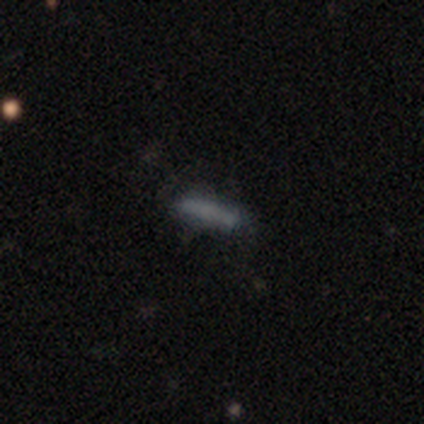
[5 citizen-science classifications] Smooth or featured? smooth (60%)
How rounded? cigar-shaped (100%)
Merging? none (67%)